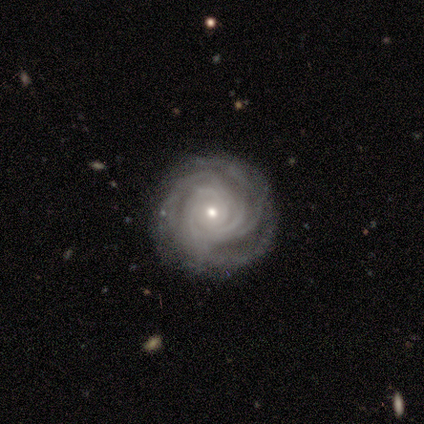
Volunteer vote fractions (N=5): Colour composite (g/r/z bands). It shows a featured or disk galaxy (100%) with no bar (100%), more than 4 (60%) tight (100%) spiral arms (100%) and a small central bulge (80%). Merging: none (60%).